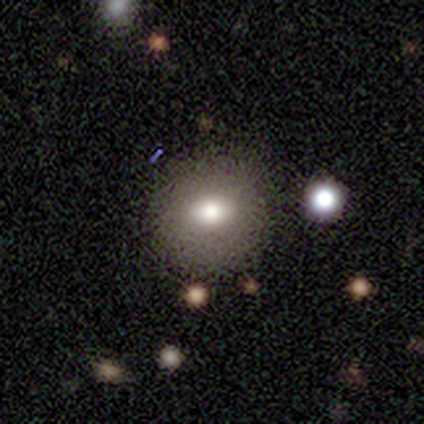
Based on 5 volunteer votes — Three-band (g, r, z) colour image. It shows a smooth galaxy with no disk features (80%) that is round (50%, tied with in between). Merging: none (100%).